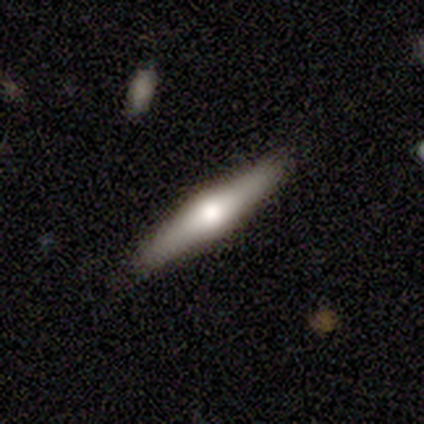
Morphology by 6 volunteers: A featured or disk galaxy (50%) viewed edge-on (100%) with a rounded central bulge (100%).

Vote fractions:
- Smooth or featured? featured or disk: 50% / smooth: 33% / star or artifact: 17%
- Edge-on disk? yes: 100% / no: 0%
- Edge-on bulge? rounded: 100% / boxy: 0% / none: 0%
- Merging? none: 80% / minor disturbance: 20% / major disturbance: 0% / merger: 0%